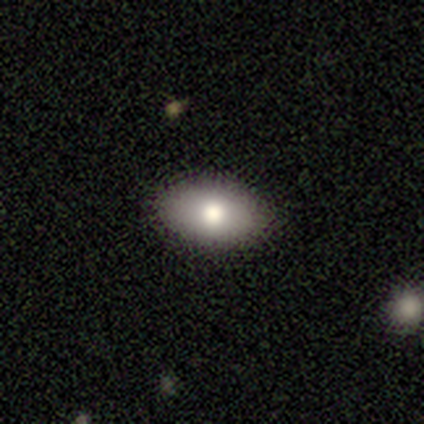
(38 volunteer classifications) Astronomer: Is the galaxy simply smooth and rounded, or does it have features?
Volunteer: smooth — 66%.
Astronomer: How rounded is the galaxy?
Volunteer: in between — 84%.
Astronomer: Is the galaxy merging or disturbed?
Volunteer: none — 100%.